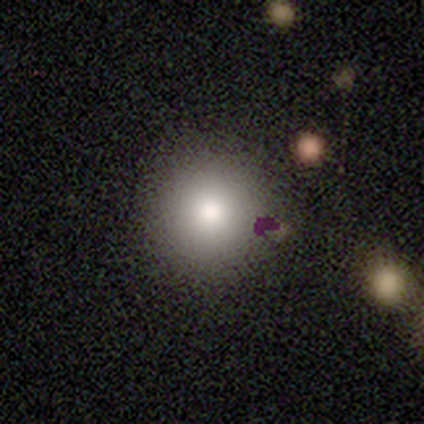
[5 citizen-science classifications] smooth 60%, featured or disk 20%, star or artifact 20%. Down the decision tree: how rounded — round (100%); merging — none (100%).